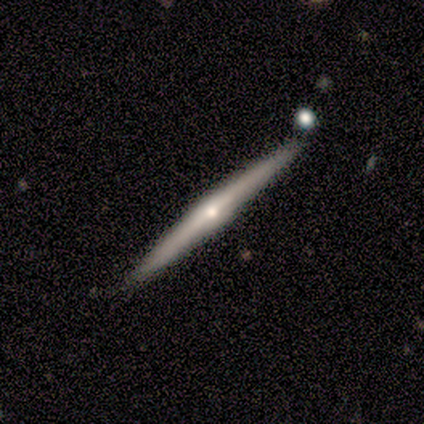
Smooth or featured? 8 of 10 (80%) said featured or disk. Edge-on disk? 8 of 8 (100%) said yes. Edge-on bulge? 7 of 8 (88%) said rounded. Merging? 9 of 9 (100%) said none.